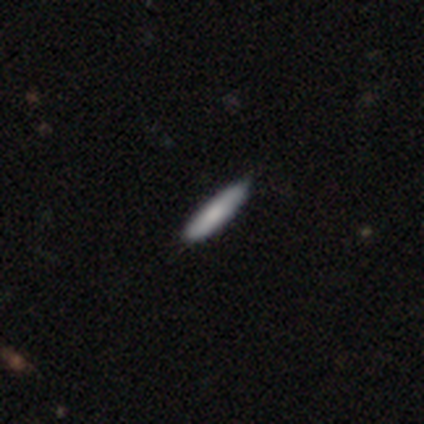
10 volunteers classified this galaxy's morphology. Smooth or featured? smooth (90%)
How rounded? cigar-shaped (78%)
Merging? none (80%)